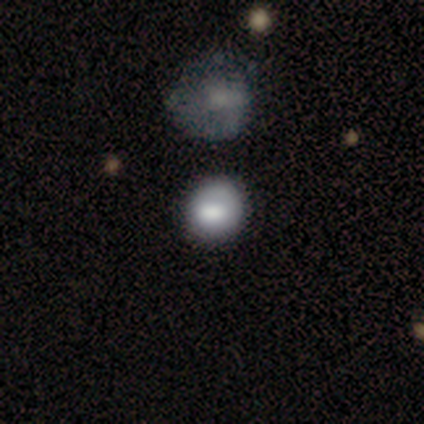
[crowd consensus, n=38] A smooth galaxy with no disk features (76%) that is round (90%).

Vote fractions:
- Smooth or featured? smooth: 76% / featured or disk: 13% / star or artifact: 11%
- How rounded? round: 90% / in between: 10% / cigar-shaped: 0%
- Merging? none: 56% / minor disturbance: 26% / merger: 15% / major disturbance: 3%